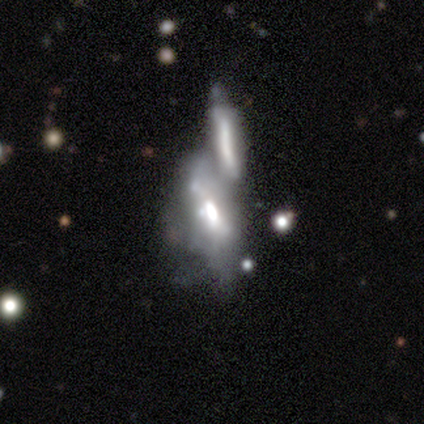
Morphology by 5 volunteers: Smooth or featured: smooth — 60% (featured or disk — 40%)
How rounded: in between — 67% (cigar-shaped — 33%)
Merging: merger — 80% (none — 20%)